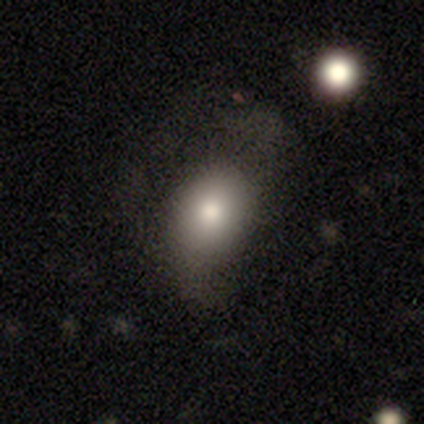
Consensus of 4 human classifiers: This is likely a smooth galaxy (75%). How rounded: clearly in between (100%). Merging: likely none (75%).